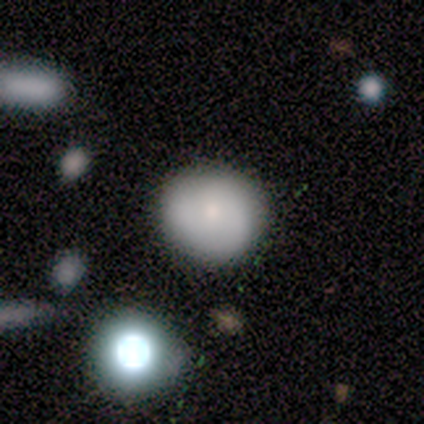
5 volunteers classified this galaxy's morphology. smooth_or_featured: smooth (p=1.00)
how_rounded: round (p=1.00)
merging: none (p=1.00)